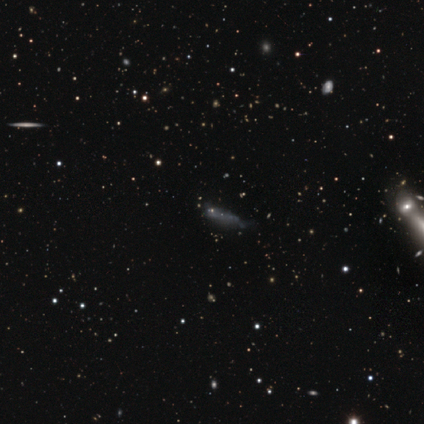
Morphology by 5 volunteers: smooth-or-featured: star or artifact: 80% | featured or disk: 20% | smooth: 0%